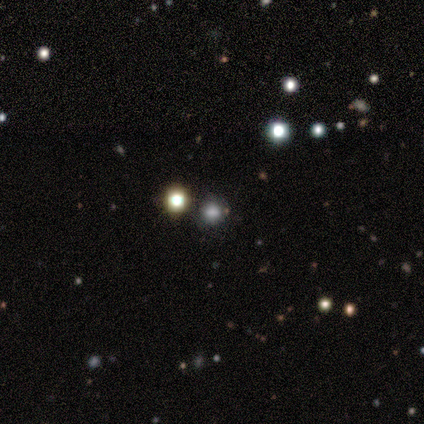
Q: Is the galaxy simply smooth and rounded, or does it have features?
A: smooth — 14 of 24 (58%).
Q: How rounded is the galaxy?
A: round — 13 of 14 (93%).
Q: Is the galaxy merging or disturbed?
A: none — 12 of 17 (71%).